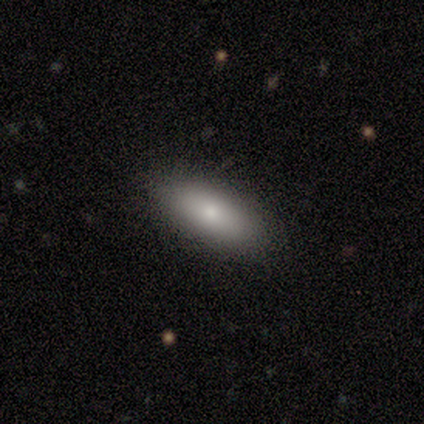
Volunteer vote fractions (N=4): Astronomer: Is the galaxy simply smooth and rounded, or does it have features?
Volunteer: smooth — 50%, tied with featured or disk at 50%.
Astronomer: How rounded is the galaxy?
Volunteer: in between — 100%.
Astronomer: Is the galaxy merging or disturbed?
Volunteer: none — 100%.